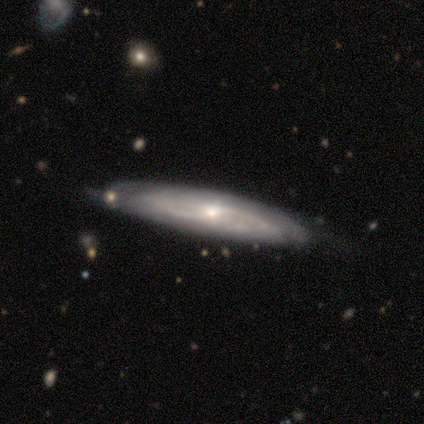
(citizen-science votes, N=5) Smooth or featured? featured or disk (80%)
Edge-on disk? yes (50%, tied with no)
Edge-on bulge? rounded (100%)
Merging? none (75%)